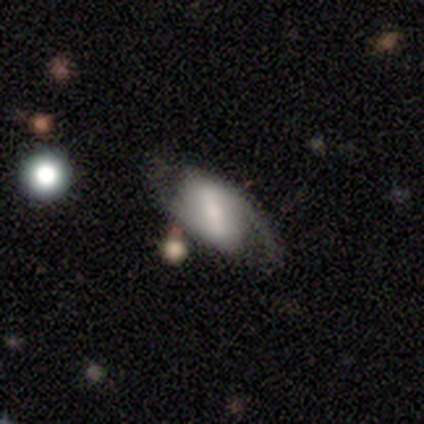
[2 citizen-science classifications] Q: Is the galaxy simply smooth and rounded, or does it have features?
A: featured or disk — 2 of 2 (100%).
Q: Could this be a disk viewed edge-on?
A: no — 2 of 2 (100%).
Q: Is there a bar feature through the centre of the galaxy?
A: strong — 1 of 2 (50%, tied with weak).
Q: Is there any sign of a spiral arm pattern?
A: yes — 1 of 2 (50%, tied with no).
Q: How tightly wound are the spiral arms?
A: medium — 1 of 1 (100%).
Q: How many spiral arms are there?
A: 2 — 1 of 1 (100%).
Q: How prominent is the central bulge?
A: large — 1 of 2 (50%, tied with small).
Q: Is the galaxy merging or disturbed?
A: none — 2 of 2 (100%).